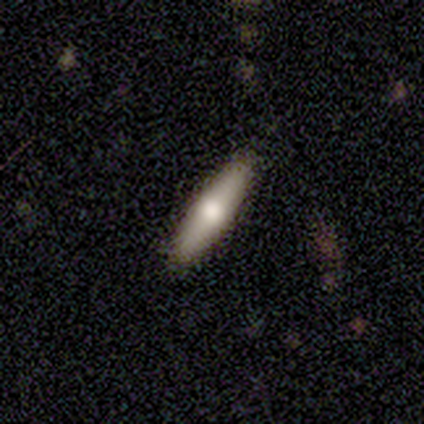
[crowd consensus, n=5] A featured or disk galaxy (60%) viewed edge-on (67%) with a rounded central bulge (100%). Merging: none (100%).